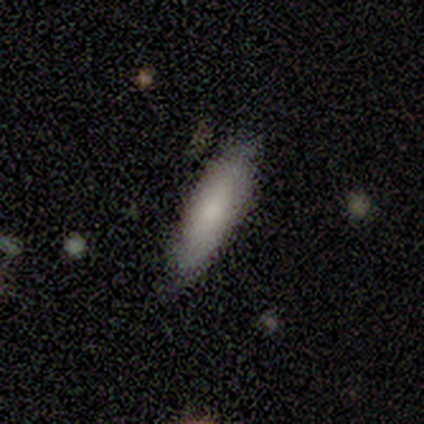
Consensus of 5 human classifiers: smooth_or_featured: smooth (p=0.80) [alt: featured or disk p=0.20]
how_rounded: cigar-shaped (p=0.75) [alt: in between p=0.25]
merging: none (p=1.00)